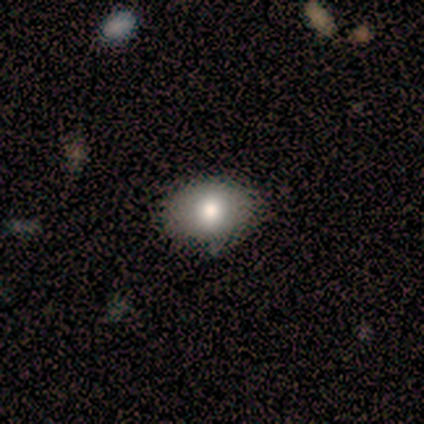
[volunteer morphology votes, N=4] type=smooth (100%); roundness=round (75%); merging=none (100%).